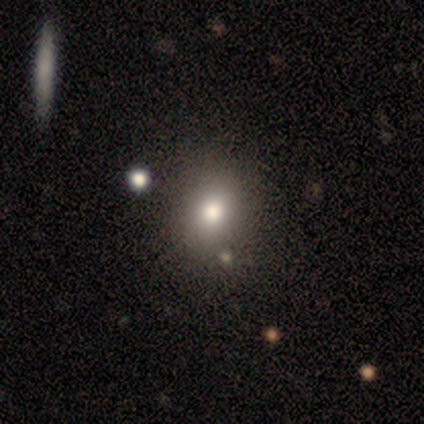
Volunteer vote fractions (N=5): This is clearly a smooth galaxy (80%). How rounded: possibly round (50%, tied with in between). Merging: clearly none (100%).